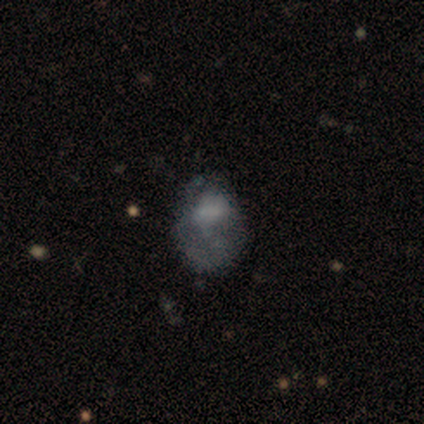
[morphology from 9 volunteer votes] smooth 44% (tied), featured or disk 44% (tied), star or artifact 11%. Down the decision tree: how rounded — round (50%, tied with in between); merging — none (38%, tied with minor disturbance).